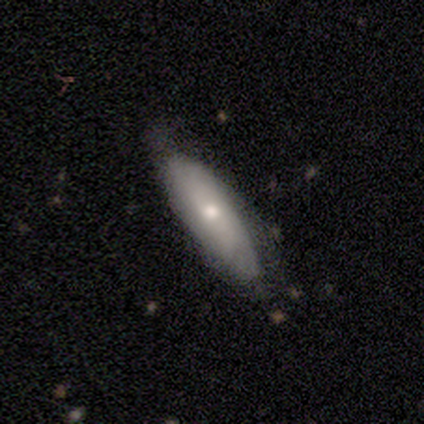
Morphology: type=smooth (60%); roundness=in between (67%); merging=none (60%).